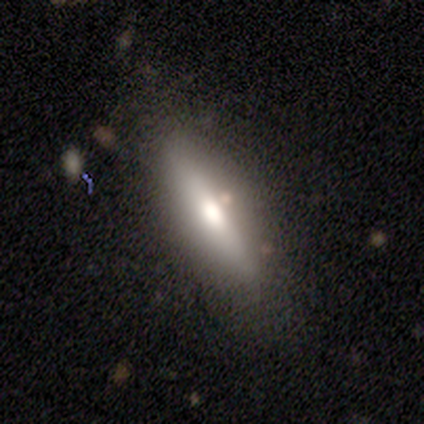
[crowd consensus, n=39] smooth-or-featured: featured or disk: 51% | smooth: 44% | star or artifact: 5%
  disk-edge-on: yes: 70% | no: 30%
    edge-on-bulge: rounded: 79% | none: 14% | boxy: 7%
  merging: none: 78% | minor disturbance: 19% | major disturbance: 3% | merger: 0%